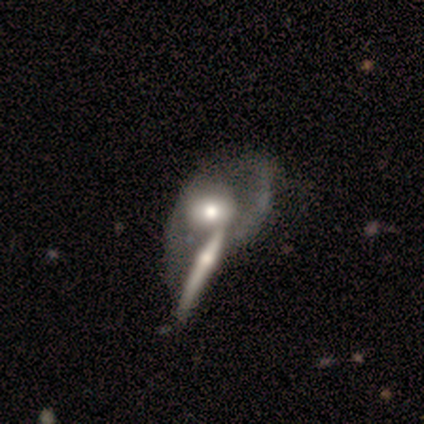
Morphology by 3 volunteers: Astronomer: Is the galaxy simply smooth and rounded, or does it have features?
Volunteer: smooth — 67%.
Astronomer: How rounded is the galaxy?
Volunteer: round — 50%, tied with cigar-shaped at 50%.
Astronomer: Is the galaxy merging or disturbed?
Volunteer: major disturbance — 67%.